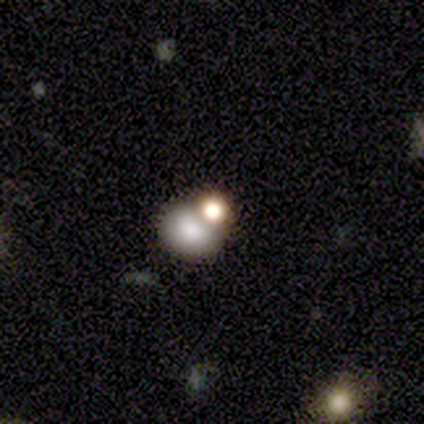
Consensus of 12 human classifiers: smooth_or_featured: smooth (p=0.67) [alt: featured or disk p=0.25]
how_rounded: round (p=0.62) [alt: in between p=0.38]
merging: none (p=0.55) [alt: merger p=0.36]